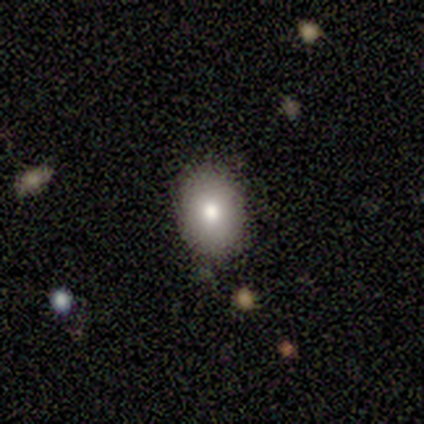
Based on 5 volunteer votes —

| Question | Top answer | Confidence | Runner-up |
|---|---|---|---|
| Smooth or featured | smooth | 100% | — |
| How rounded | in between | 100% | — |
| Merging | none | 100% | — |